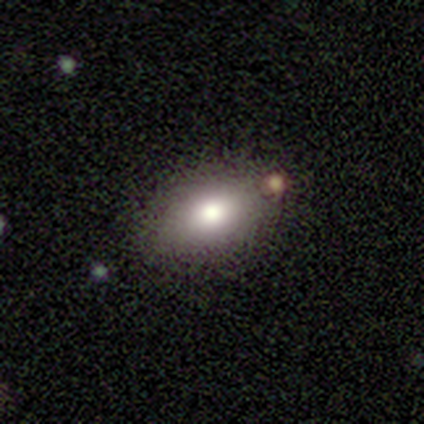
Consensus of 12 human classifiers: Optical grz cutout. It shows a smooth galaxy with no disk features (92%) that is in between round and cigar-shaped (91%). Merging: none (55%).